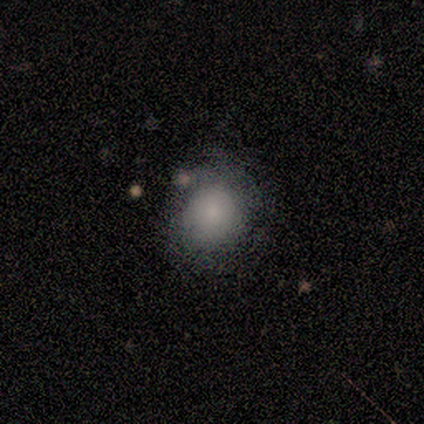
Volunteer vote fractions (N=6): Smooth or featured? smooth (67%)
How rounded? round (50%, tied with in between)
Merging? none (67%)